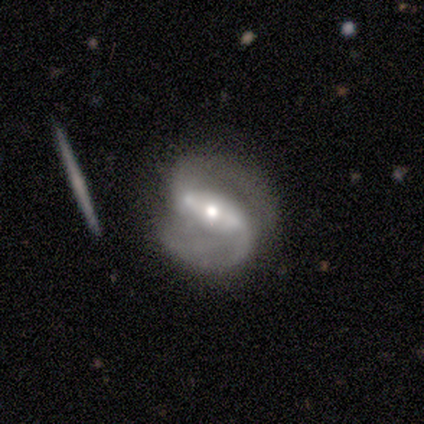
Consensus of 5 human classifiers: Smooth or featured? 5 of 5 (100%) said featured or disk. Edge-on disk? 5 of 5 (100%) said no. Bar? 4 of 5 (80%) said strong. Spiral arms? 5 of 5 (100%) said yes. Spiral winding? 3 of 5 (60%) said loose. Spiral arm count? 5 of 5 (100%) said 2. Bulge size? 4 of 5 (80%) said moderate. Merging? 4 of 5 (80%) said none.